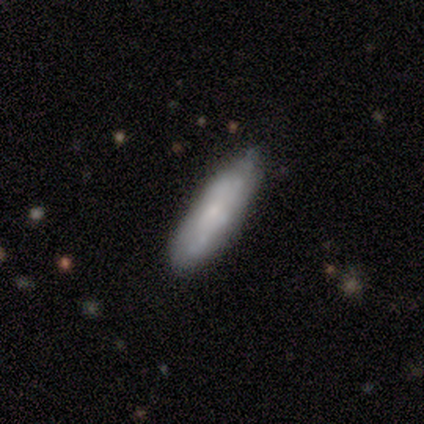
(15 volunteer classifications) smooth 60%, featured or disk 40%, star or artifact 0%. Down the decision tree: how rounded — cigar-shaped (78%); merging — none (87%).